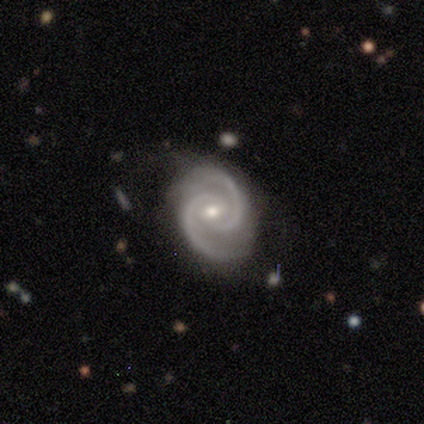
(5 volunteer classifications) Q: Smooth or featured?
A: featured or disk (100%)
Q: Edge-on disk?
A: no (100%)
Q: Bar?
A: weak (60%); runner-up: no (40%)
Q: Spiral arms?
A: yes (100%)
Q: Spiral winding?
A: medium (80%); runner-up: tight (20%)
Q: Spiral arm count?
A: 2 (100%)
Q: Bulge size?
A: moderate (60%); runner-up: small (40%)
Q: Merging?
A: none (100%)